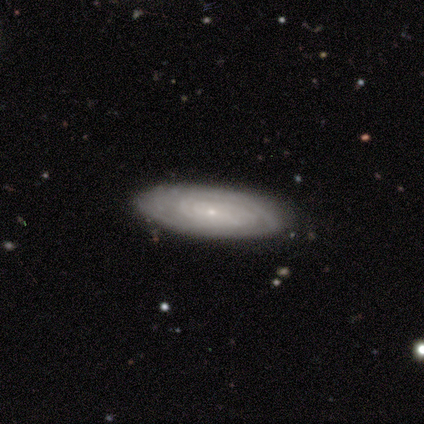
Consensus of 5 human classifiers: This is clearly a featured or disk galaxy (80%). It is clearly not viewed edge-on (100%). Bar: possibly weak (50%, tied with no). Spiral arm pattern: clearly yes (100%). Spiral arm count: possibly 2 (50%, tied with can't tell). Spiral winding: likely tight (75%). Central bulge: clearly small (100%). Merging: clearly none (80%).